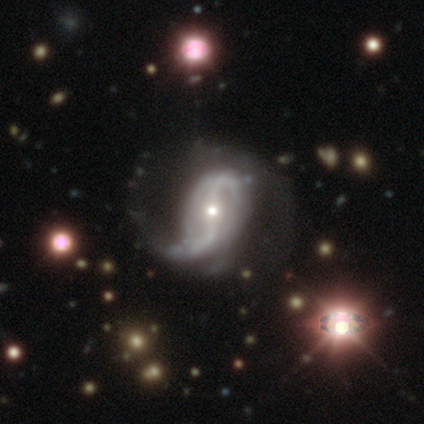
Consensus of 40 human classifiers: This is clearly a featured or disk galaxy (92%). It is clearly not viewed edge-on (92%). Bar: marginally strong (41%). Spiral arm pattern: clearly yes (94%). Spiral arm count: likely 2 (72%). Spiral winding: likely loose (62%). Central bulge: possibly small (59%). Merging: possibly none (50%).